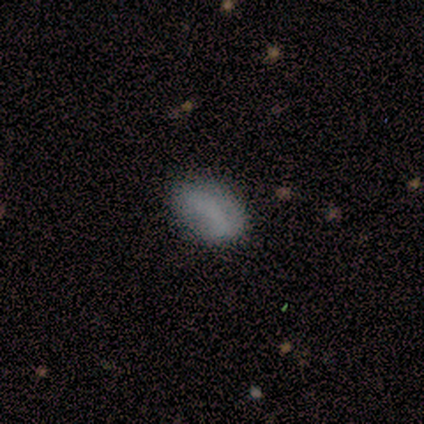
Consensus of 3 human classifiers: A smooth galaxy with no disk features (33%, tied with featured or disk and star or artifact) that is in between round and cigar-shaped (100%).

Vote fractions:
- Smooth or featured? smooth: 33% (tied) / featured or disk: 33% (tied) / star or artifact: 33% (tied)
- How rounded? in between: 100% / round: 0% / cigar-shaped: 0%
- Merging? none: 100% / minor disturbance: 0% / major disturbance: 0% / merger: 0%